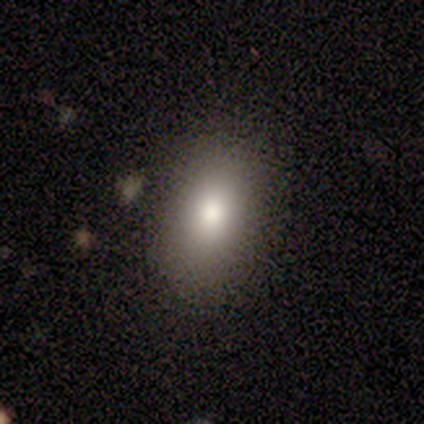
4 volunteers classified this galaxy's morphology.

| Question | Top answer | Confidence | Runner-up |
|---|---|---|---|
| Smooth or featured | smooth | 100% | — |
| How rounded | in between | 100% | — |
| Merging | none | 100% | — |